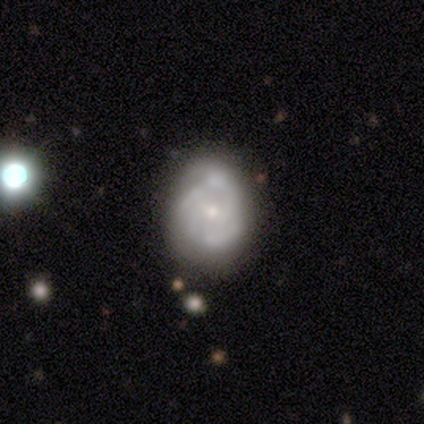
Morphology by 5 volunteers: Overall: featured or disk (100%). Edge-on disk: no (100%). Bar: no (60%; weak 40%). Spiral arms: yes (60%; no 40%). Spiral arm count: 3 (67%; can't tell 33%). Spiral winding: tight (67%; medium 33%). Bulge size: moderate (60%; small 40%). Merging: none (60%; minor disturbance 40%).